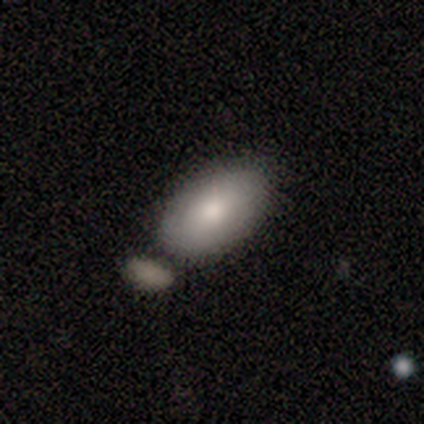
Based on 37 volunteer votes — This is likely a smooth galaxy (73%). How rounded: clearly in between (100%). Merging: likely none (70%).